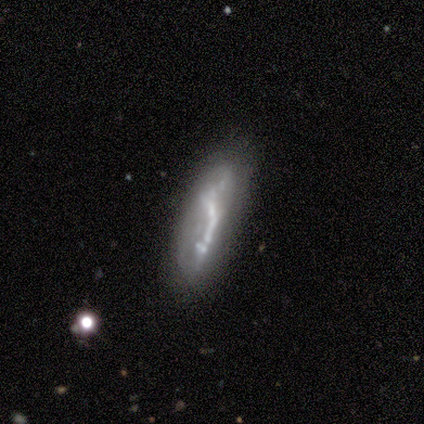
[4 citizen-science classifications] A featured or disk galaxy (50%) viewed edge-on (50%, tied with no) with no central bulge (100%). Merging: minor disturbance (67%).